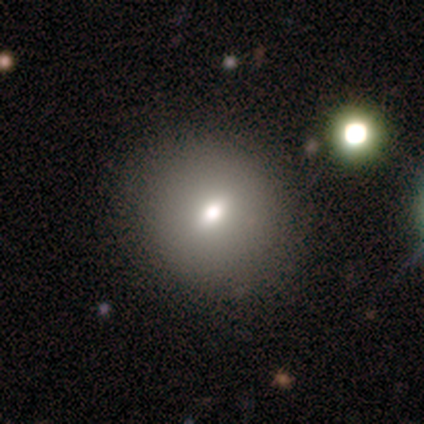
Smooth or featured? smooth (74%)
How rounded? round (72%)
Merging? none (94%)